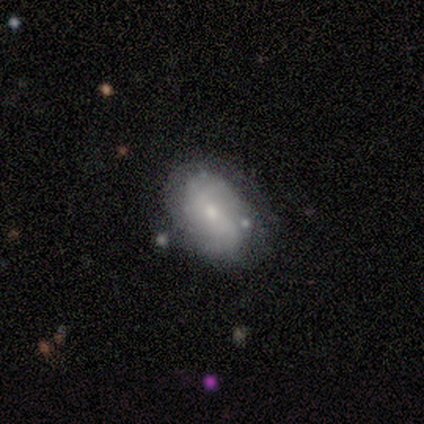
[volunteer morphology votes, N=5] Q: Smooth or featured?
A: smooth (60%); runner-up: featured or disk (40%)
Q: How rounded?
A: in between (100%)
Q: Merging?
A: none (100%)